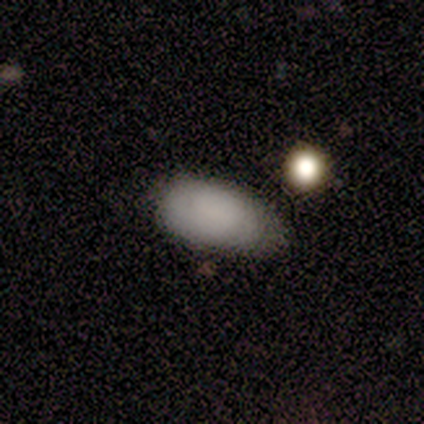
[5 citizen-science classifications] A smooth galaxy with no disk features (80%) that is in between round and cigar-shaped (100%). Merging: none (60%).